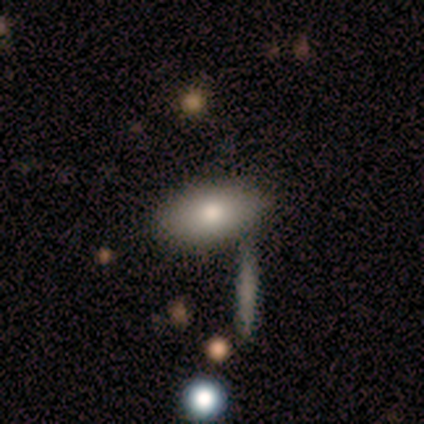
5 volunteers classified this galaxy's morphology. type=smooth (80%); roundness=in between (100%); merging=none (60%).